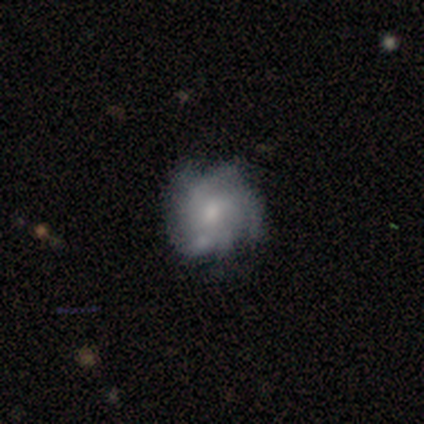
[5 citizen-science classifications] This appears to be a featured or disk galaxy (80%) with no bar (75%), medium (67%) spiral arms (75%) and a small central bulge (75%). Merging: minor disturbance (60%).